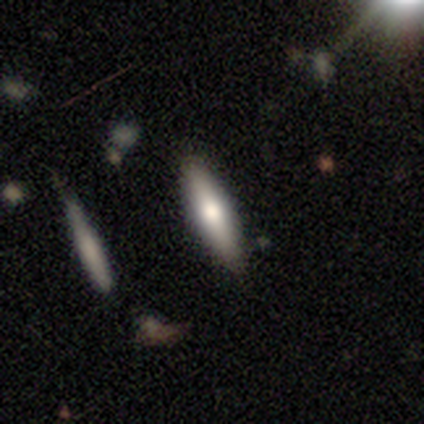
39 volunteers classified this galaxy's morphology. Smooth or featured?
  - smooth: 67% *
  - featured or disk: 28%
  - star or artifact: 5%
How rounded?
  - cigar-shaped: 88% *
  - in between: 12%
  - round: 0%
Merging?
  - none: 89% *
  - minor disturbance: 11%
  - major disturbance: 0%
  - merger: 0%